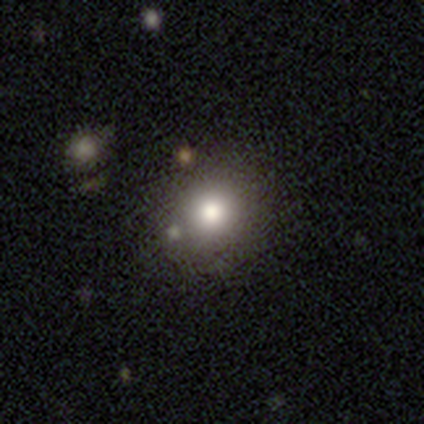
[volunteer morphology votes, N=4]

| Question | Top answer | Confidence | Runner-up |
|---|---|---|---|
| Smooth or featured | smooth | 75% | star or artifact (25%) |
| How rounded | round | 100% | — |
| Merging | none | 100% | — |